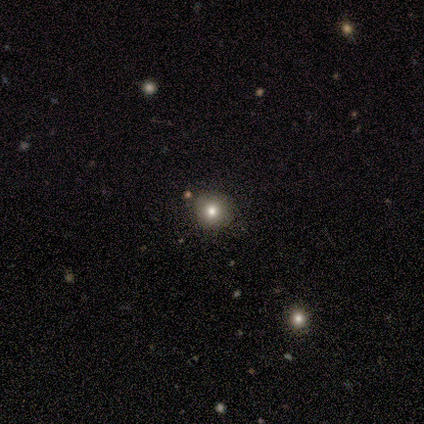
Smooth or featured?
  - smooth: 80% *
  - star or artifact: 20%
  - featured or disk: 0%
How rounded?
  - round: 100% *
  - in between: 0%
  - cigar-shaped: 0%
Merging?
  - none: 75% *
  - minor disturbance: 25%
  - major disturbance: 0%
  - merger: 0%